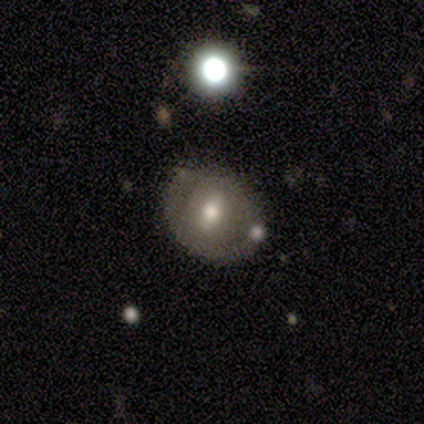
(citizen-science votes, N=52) A smooth galaxy with no disk features (50%) that is round (58%). Merging: none (67%).